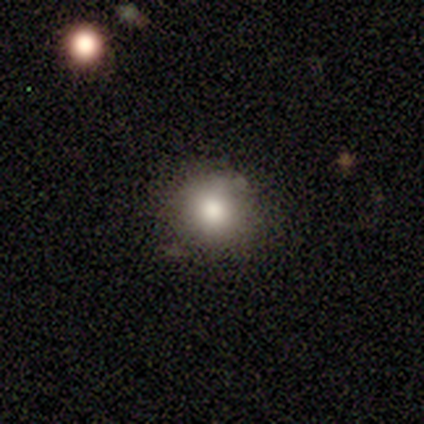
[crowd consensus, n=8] smooth_or_featured: smooth (p=0.88) [alt: featured or disk p=0.12]
how_rounded: round (p=0.71) [alt: in between p=0.29]
merging: none (p=0.75) [alt: minor disturbance p=0.25]